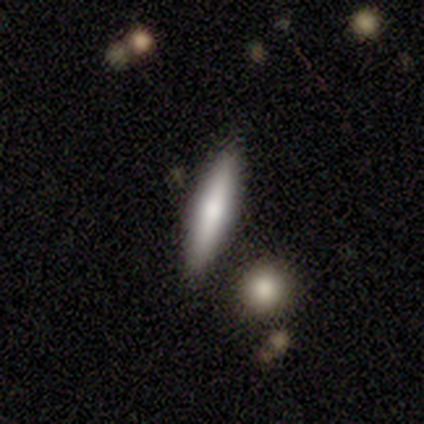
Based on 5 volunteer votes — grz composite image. It shows a smooth galaxy with no disk features (100%) that is cigar-shaped (60%). Merging: none (80%).